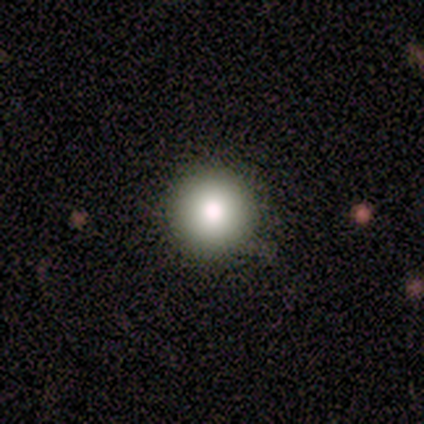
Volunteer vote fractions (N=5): Smooth or featured? 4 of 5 (80%) said smooth. How rounded? 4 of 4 (100%) said round. Merging? 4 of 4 (100%) said none.